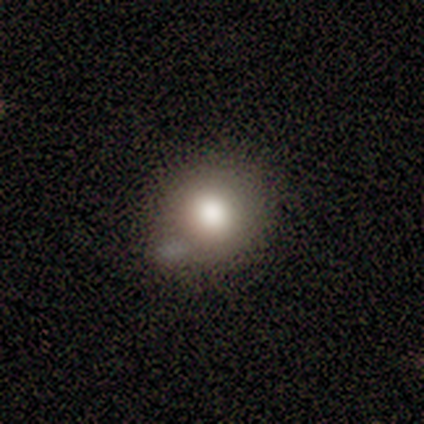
This is clearly a smooth galaxy (80%). How rounded: clearly round (100%). Merging: likely none (60%).